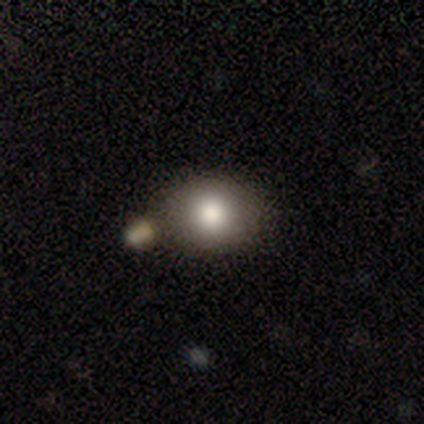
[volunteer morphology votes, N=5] Smooth or featured?
  - smooth: 60% *
  - star or artifact: 40%
  - featured or disk: 0%
How rounded?
  - round: 67% *
  - in between: 33%
  - cigar-shaped: 0%
Merging?
  - none: 67% *
  - minor disturbance: 33%
  - major disturbance: 0%
  - merger: 0%